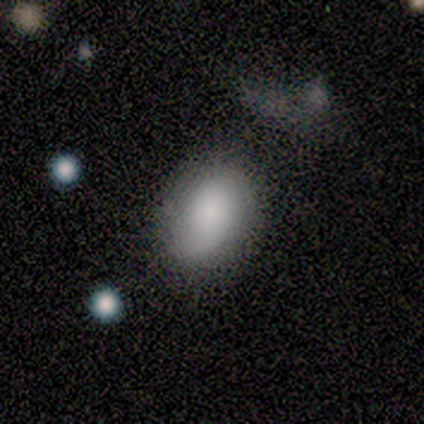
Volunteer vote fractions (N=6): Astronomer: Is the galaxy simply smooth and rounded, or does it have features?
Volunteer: smooth — 67%.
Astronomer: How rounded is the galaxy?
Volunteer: in between — 100%.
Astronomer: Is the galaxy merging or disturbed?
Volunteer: none — 50%, tied with minor disturbance at 50%.